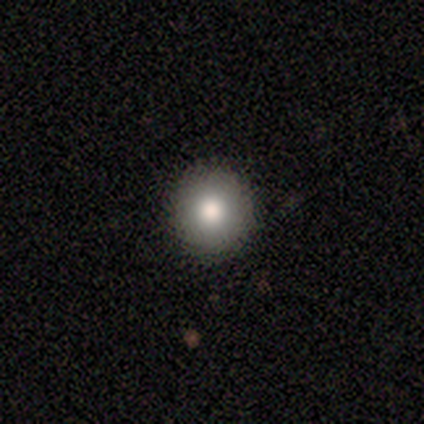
A smooth galaxy with no disk features (80%) that is round (100%). Merging: none (60%).